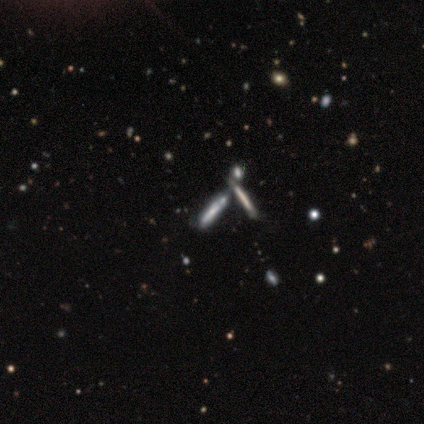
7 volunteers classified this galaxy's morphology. Overall: smooth (43%, tied with featured or disk). How rounded: cigar-shaped (100%). Merging: none (83%).